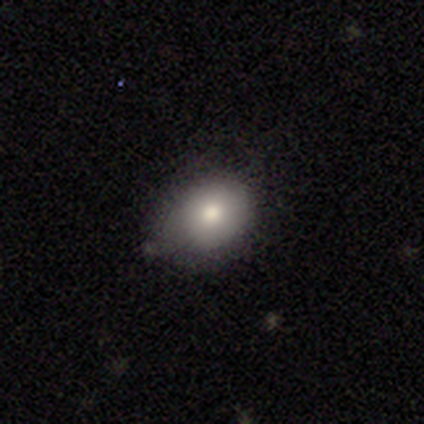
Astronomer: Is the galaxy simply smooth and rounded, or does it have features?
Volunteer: smooth — 57%.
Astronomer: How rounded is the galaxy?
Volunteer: round — 50%, tied with in between at 50%.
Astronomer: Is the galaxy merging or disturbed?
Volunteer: minor disturbance — 67%.